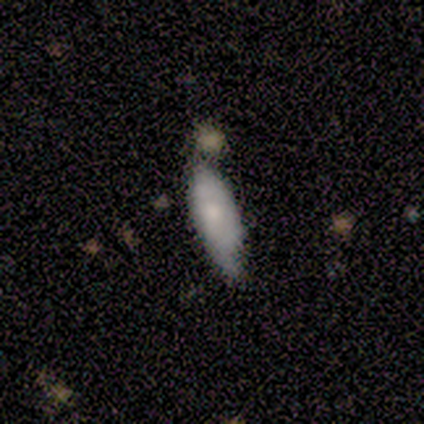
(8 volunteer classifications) Smooth or featured: smooth — 75% (featured or disk — 12%)
How rounded: in between — 50% (cigar-shaped — 33%)
Merging: none — 57% (merger — 29%)